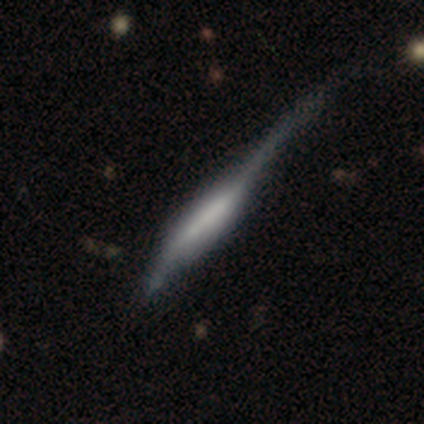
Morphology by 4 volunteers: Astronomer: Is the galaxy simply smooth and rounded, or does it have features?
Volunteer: featured or disk — 50%.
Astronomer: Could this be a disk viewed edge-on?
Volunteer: yes — 100%.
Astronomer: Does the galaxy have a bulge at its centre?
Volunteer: boxy — 50%, tied with none at 50%.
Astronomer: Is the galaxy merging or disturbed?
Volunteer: major disturbance — 100%.